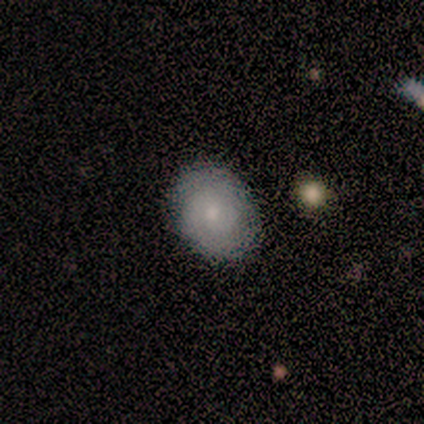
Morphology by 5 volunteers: type=smooth (80%); roundness=round (50%, tied with in between); merging=none (100%).